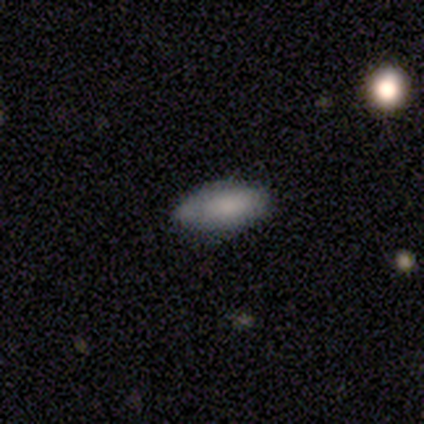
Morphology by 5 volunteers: This appears to be a smooth galaxy with no disk features (60%) that is cigar-shaped (67%). Merging: none (80%).